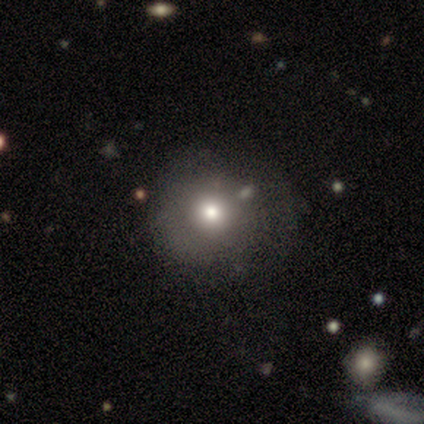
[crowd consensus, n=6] Volunteers were most divided on "merging": minor disturbance: 40%, none: 20%, major disturbance: 20%, merger: 20%. More confident: how rounded — round (100%); smooth or featured — smooth (67%).